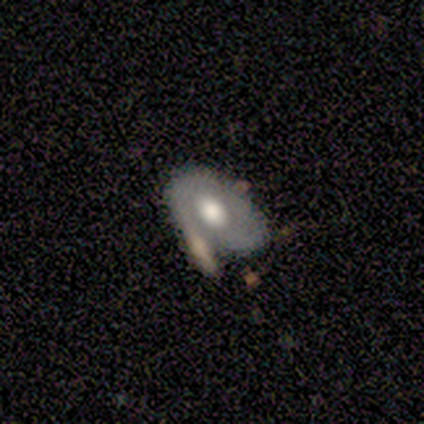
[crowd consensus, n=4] Smooth or featured: featured or disk — 100%
Edge-on disk: no — 100%
Bar: weak — 50% (tied with no — 50%)
Spiral arms: yes — 50% (tied with no — 50%)
Spiral winding: tight — 100%
Spiral arm count: 1 — 50% (tied with 2 — 50%)
Bulge size: moderate — 75% (small — 25%)
Merging: none — 75% (merger — 25%)